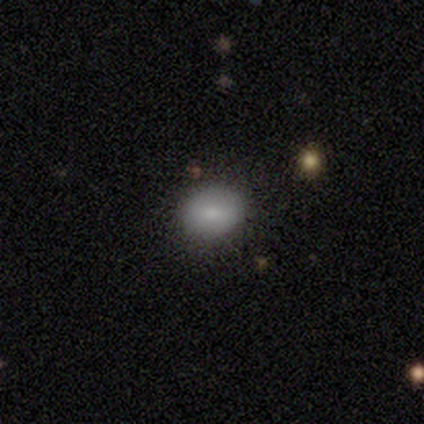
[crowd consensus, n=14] A smooth galaxy with no disk features (64%) that is round (56%).

Vote fractions:
- Smooth or featured? smooth: 64% / star or artifact: 21% / featured or disk: 14%
- How rounded? round: 56% / in between: 44% / cigar-shaped: 0%
- Merging? none: 91% / major disturbance: 9% / minor disturbance: 0% / merger: 0%